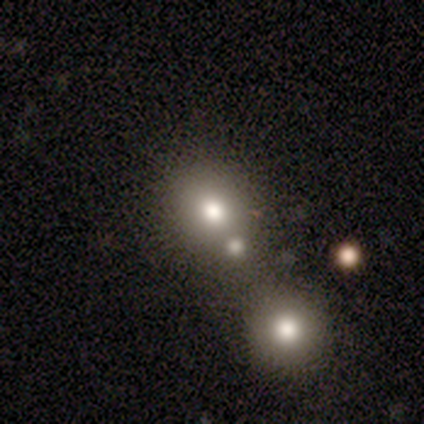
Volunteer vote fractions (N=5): This is clearly a smooth galaxy (100%). How rounded: clearly round (100%). Merging: clearly none (80%).